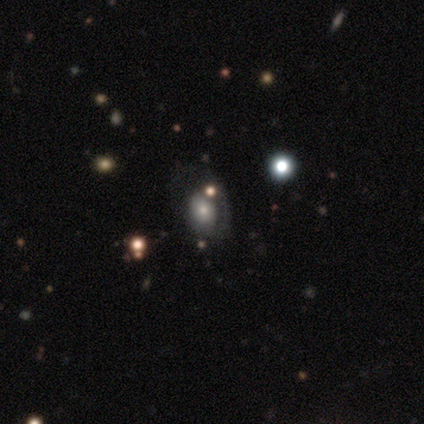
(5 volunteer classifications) Smooth or featured? smooth (60%)
How rounded? round (67%)
Merging? none (60%)